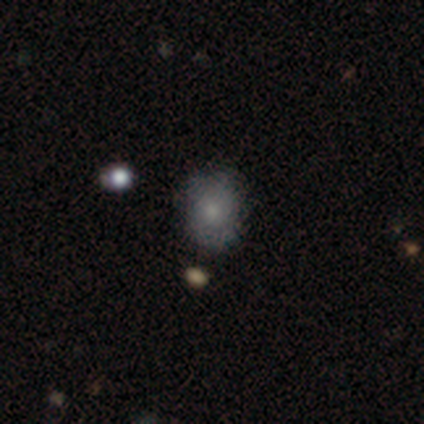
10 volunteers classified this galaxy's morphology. This appears to be a smooth galaxy with no disk features (60%) that is round (83%). Merging: none (60%).